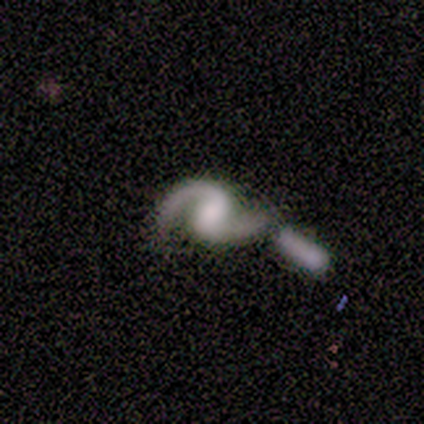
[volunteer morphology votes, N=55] Smooth or featured? featured or disk (95%)
Edge-on disk? no (100%)
Bar? weak (56%)
Spiral arms? yes (100%)
Spiral winding? loose (60%)
Spiral arm count? 2 (96%)
Bulge size? moderate (38%)
Merging? merger (35%)